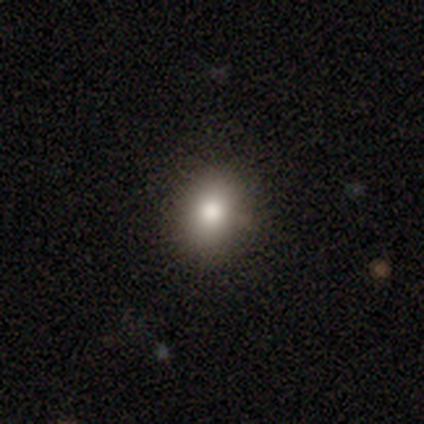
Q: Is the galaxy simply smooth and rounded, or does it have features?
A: smooth — 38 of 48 (79%).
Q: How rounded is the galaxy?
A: round — 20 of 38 (53%).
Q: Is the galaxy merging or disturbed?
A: none — 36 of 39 (92%).